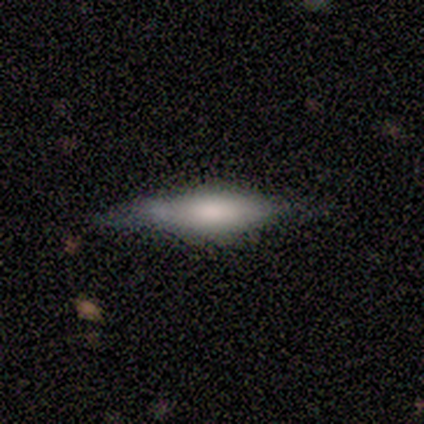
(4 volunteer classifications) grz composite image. It shows a smooth galaxy with no disk features (75%) that is cigar-shaped (67%). Merging: minor disturbance (75%).